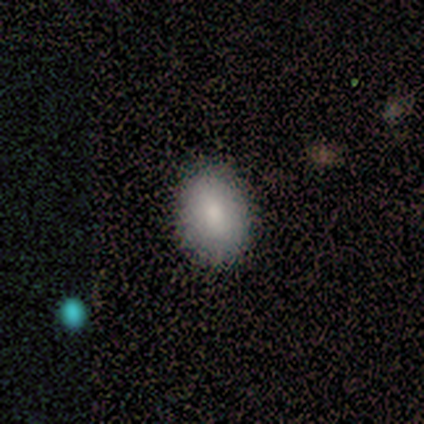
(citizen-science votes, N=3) Q: Smooth or featured?
A: smooth (67%); runner-up: featured or disk (33%)
Q: How rounded?
A: round (50%); tied with: in between (50%)
Q: Merging?
A: none (100%)